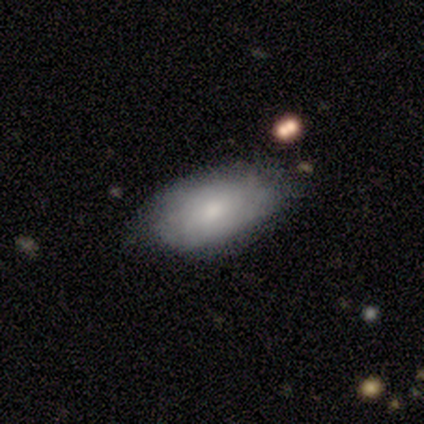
Smooth or featured? 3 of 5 (60%) said smooth. How rounded? 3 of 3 (100%) said in between. Merging? 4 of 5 (80%) said none.